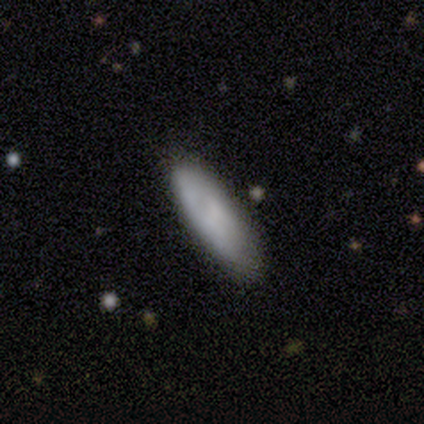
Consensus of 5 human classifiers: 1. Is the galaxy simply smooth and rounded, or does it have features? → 80% smooth, 20% featured or disk, 0% star or artifact.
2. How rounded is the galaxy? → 75% cigar-shaped, 25% in between, 0% round.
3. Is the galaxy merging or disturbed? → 60% none, 40% minor disturbance, 0% major disturbance, 0% merger.